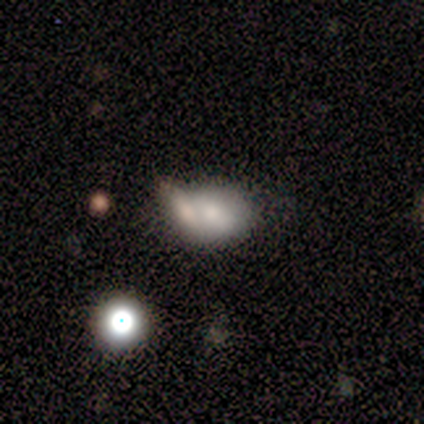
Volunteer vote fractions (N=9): Smooth or featured? smooth (56%)
How rounded? round (60%)
Merging? merger (56%)